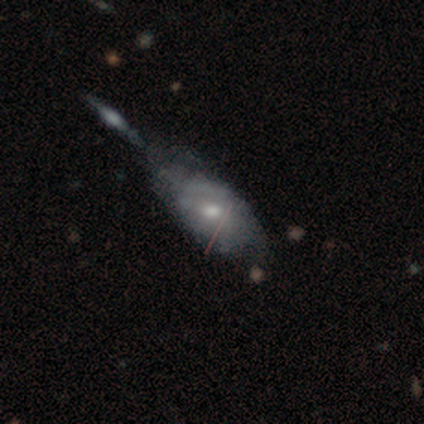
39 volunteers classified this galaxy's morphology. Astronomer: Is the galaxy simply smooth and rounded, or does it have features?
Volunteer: featured or disk — 51% (runner-up: smooth, 44%).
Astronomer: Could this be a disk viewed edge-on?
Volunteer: no — 90%.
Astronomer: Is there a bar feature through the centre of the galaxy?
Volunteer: no — 83%.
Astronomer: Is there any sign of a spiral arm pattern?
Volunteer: no — 67%.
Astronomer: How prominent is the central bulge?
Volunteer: moderate — 56% (runner-up: small, 39%).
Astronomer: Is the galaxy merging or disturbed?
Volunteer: major disturbance — 27% (runner-up: merger, 22%).